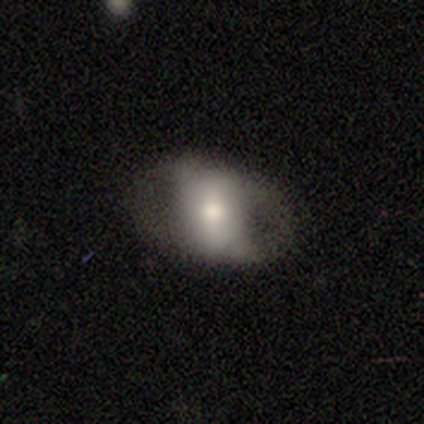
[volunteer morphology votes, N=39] Smooth or featured? 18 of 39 (46%, tied with featured or disk) said smooth. How rounded? 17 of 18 (94%) said in between. Merging? 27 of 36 (75%) said none.